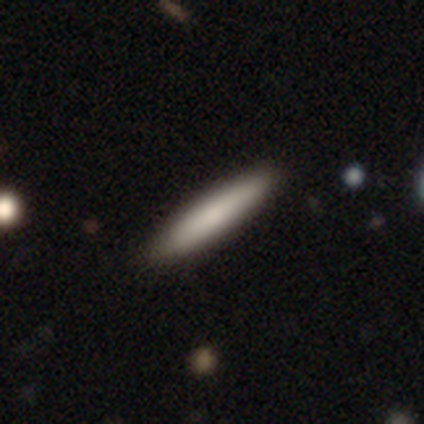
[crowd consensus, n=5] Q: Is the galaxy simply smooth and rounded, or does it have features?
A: smooth — 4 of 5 (80%).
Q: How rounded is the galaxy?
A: cigar-shaped — 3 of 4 (75%).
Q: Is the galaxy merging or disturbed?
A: none — 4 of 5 (80%).